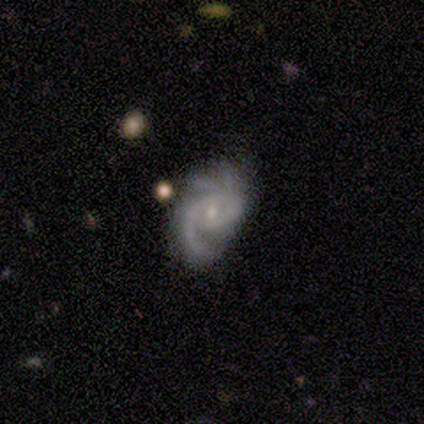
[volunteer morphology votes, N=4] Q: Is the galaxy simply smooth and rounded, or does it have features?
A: featured or disk — 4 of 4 (100%).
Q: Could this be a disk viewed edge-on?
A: no — 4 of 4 (100%).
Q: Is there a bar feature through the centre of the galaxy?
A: no — 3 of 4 (75%).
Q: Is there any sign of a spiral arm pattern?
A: yes — 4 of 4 (100%).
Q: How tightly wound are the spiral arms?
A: tight — 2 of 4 (50%, tied with medium).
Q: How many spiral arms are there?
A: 3 — 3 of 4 (75%).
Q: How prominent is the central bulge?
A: moderate — 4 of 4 (100%).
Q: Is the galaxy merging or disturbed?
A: none — 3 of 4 (75%).